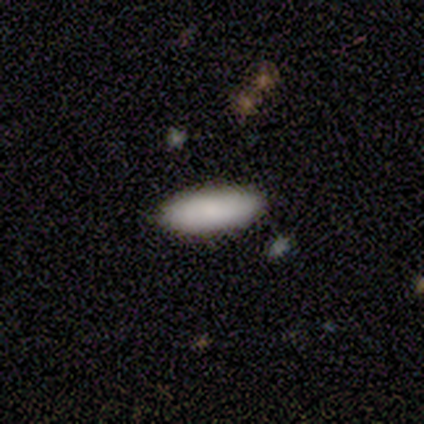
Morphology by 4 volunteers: Smooth or featured? smooth (100%)
How rounded? in between (100%)
Merging? none (75%)